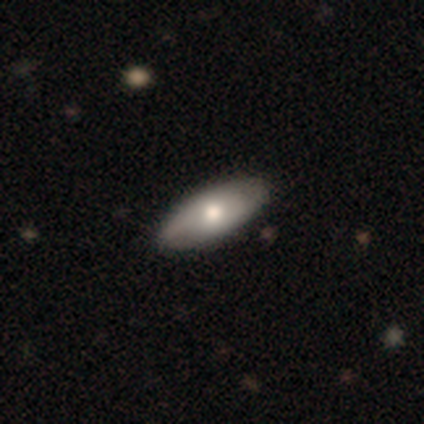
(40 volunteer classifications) smooth 60%, featured or disk 38%, star or artifact 2%. Down the decision tree: how rounded — in between (96%); merging — none (62%).